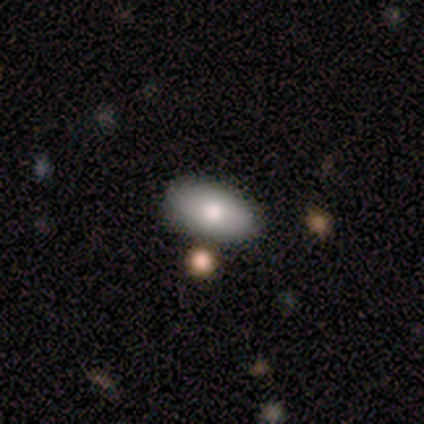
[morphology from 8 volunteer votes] Smooth or featured? smooth (75%)
How rounded? in between (100%)
Merging? none (100%)